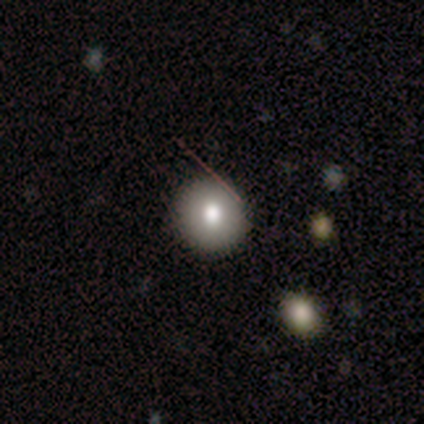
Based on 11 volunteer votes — smooth 82%, featured or disk 9%, star or artifact 9%. Down the decision tree: how rounded — round (100%); merging — none (80%).